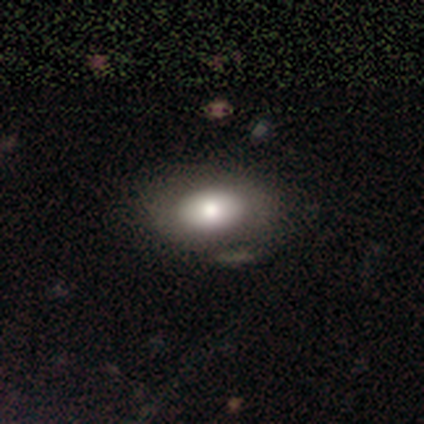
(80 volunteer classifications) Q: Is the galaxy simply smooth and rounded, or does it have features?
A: smooth — 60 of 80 (75%).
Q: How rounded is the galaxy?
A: in between — 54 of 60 (90%).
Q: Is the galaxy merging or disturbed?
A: none — 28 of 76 (37%).